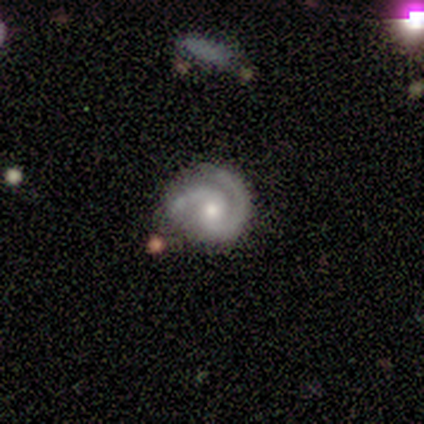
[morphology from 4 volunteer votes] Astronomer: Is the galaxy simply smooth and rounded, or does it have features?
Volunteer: featured or disk — 100%.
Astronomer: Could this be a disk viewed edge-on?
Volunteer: no — 100%.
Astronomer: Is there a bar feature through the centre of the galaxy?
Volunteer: weak — 100%.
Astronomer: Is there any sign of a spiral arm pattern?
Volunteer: yes — 100%.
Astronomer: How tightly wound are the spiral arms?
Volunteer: loose — 50%.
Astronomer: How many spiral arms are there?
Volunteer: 2 — 50%.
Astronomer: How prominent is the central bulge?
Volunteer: moderate — 100%.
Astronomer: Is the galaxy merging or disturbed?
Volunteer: none — 50%.